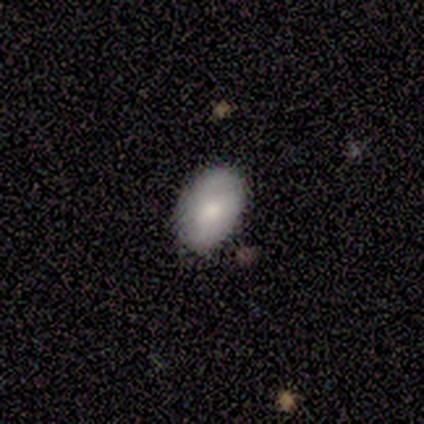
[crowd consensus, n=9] Volunteers were most divided on "smooth or featured": smooth: 78%, star or artifact: 22%, featured or disk: 0%. More confident: how rounded — in between (100%); merging — none (86%).